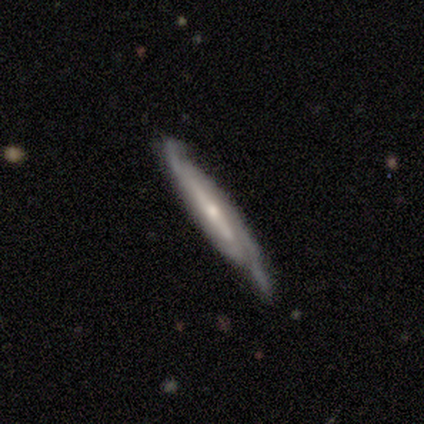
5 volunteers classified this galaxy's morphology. Smooth or featured: featured or disk — 100%
Edge-on disk: no — 60% (yes — 40%)
Bar: strong — 67% (no — 33%)
Spiral arms: yes — 100%
Spiral winding: medium — 67% (tight — 33%)
Spiral arm count: 2 — 67% (can't tell — 33%)
Bulge size: small — 67% (moderate — 33%)
Merging: none — 80% (minor disturbance — 20%)